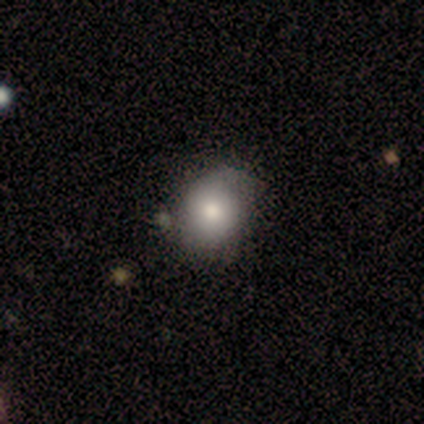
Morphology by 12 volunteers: A smooth galaxy with no disk features (92%) that is in between round and cigar-shaped (73%). Merging: none (58%).